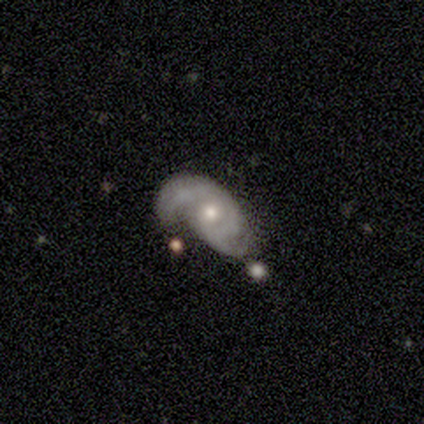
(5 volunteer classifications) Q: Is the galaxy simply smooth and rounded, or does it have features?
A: featured or disk — 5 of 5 (100%).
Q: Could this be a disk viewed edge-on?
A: no — 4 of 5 (80%).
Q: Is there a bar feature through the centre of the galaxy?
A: no — 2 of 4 (50%).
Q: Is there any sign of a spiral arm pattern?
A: yes — 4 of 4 (100%).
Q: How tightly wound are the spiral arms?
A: tight — 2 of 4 (50%, tied with loose).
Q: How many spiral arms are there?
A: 2 — 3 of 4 (75%).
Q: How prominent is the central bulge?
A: moderate — 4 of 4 (100%).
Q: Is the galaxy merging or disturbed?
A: minor disturbance — 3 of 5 (60%).